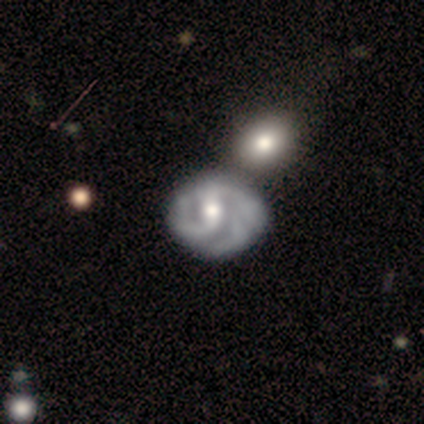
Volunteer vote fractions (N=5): Volunteers were most divided on "spiral winding" (2-way tie): tight: 50%, medium: 50%, loose: 0%; "bulge size" (2-way tie): moderate: 50%, small: 50%, dominant: 0%, large: 0%, none: 0%. More confident: edge-on disk — no (100%); spiral arms — yes (100%); smooth or featured — featured or disk (80%); bar — weak (75%); spiral arm count — 2 (75%); merging — none (50%).